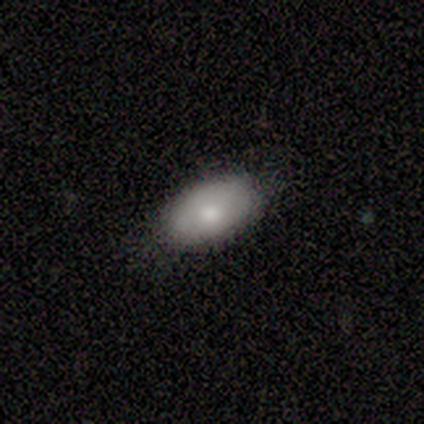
smooth 88%, featured or disk 10%, star or artifact 2%. Down the decision tree: how rounded — in between (86%); merging — none (77%).